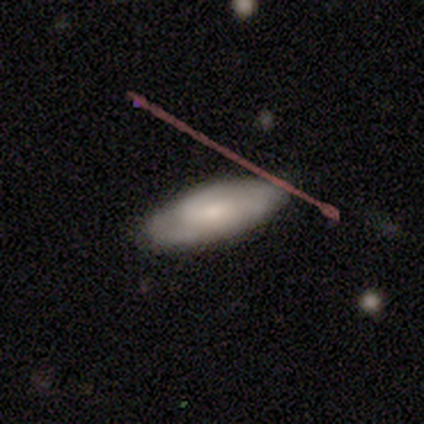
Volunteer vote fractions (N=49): smooth-or-featured: featured or disk: 51% | smooth: 45% | star or artifact: 4%
  disk-edge-on: no: 80% | yes: 20%
    bar: no: 75% | weak: 20% | strong: 5%
    has-spiral-arms: yes: 55% | no: 45%
      spiral-winding: tight: 91% | medium: 9% | loose: 0%
      spiral-arm-count: can't tell: 55% | 2: 36% | 3: 9% | 1: 0% | 4: 0% | more than 4: 0%
    bulge-size: small: 45% | moderate: 30% | none: 15% | large: 10% | dominant: 0%
  merging: none: 81% | minor disturbance: 15% | major disturbance: 4% | merger: 0%